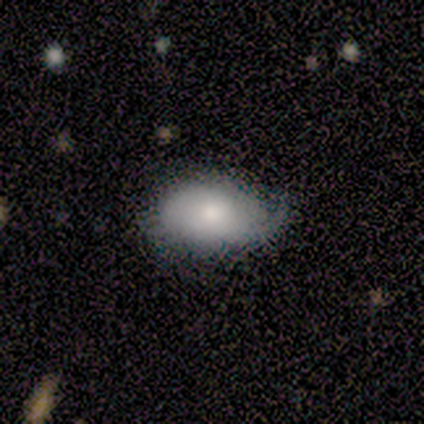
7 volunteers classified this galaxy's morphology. smooth-or-featured: smooth: 57% | featured or disk: 29% | star or artifact: 14%
  how-rounded: in between: 100% | round: 0% | cigar-shaped: 0%
  merging: minor disturbance: 50% | major disturbance: 33% | none: 17% | merger: 0%